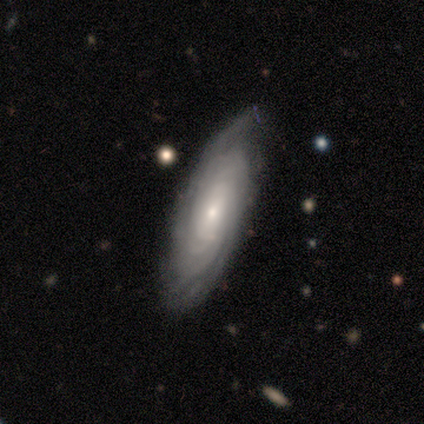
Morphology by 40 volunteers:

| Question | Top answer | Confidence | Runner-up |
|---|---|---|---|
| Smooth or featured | featured or disk | 82% | smooth (15%) |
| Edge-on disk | no | 94% | yes (6%) |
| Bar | no | 61% | weak (29%) |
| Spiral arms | yes | 100% | — |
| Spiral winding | tight | 87% | medium (10%) |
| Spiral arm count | more than 4 | 39% | can't tell (35%) |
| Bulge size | small | 71% | moderate (29%) |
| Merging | none | 74% | minor disturbance (23%) |